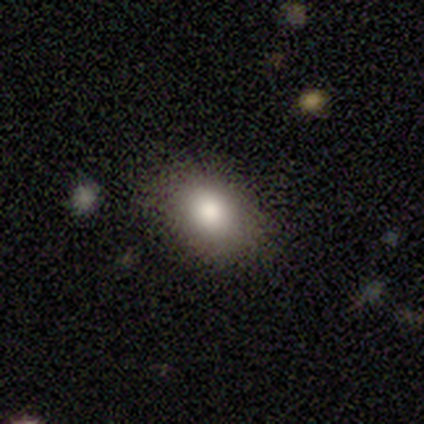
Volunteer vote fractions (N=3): Volunteers were most divided on "merging": none: 67%, major disturbance: 33%, minor disturbance: 0%, merger: 0%. More confident: smooth or featured — smooth (100%); how rounded — in between (100%).